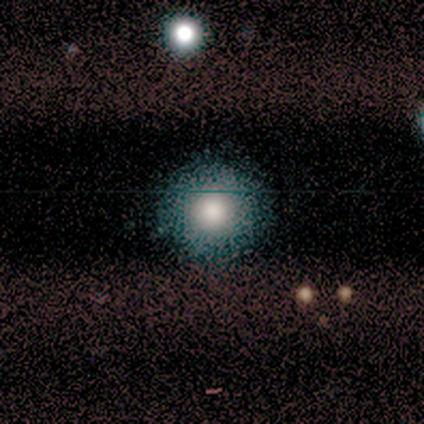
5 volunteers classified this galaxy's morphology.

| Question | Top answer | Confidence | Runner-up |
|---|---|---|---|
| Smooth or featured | smooth | 40% | tied: star or artifact (40%) |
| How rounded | round | 100% | — |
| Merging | none | 67% | minor disturbance (33%) |